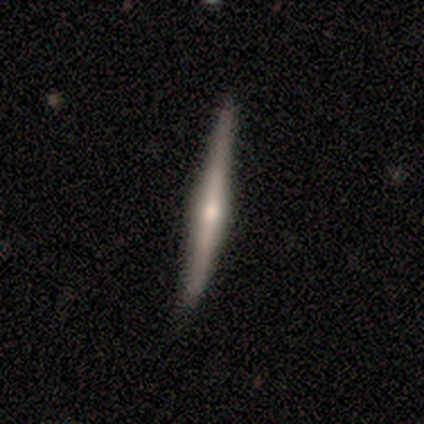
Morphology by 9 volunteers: smooth-or-featured: featured or disk: 56% | smooth: 33% | star or artifact: 11%
  disk-edge-on: yes: 100% | no: 0%
    edge-on-bulge: rounded: 80% | none: 20% | boxy: 0%
  merging: none: 75% | minor disturbance: 25% | major disturbance: 0% | merger: 0%